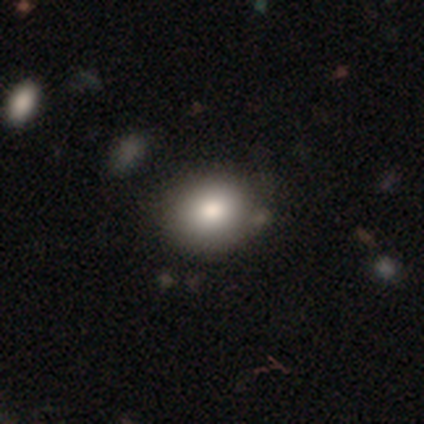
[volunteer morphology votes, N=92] smooth 79%, star or artifact 14%, featured or disk 7%. Down the decision tree: how rounded — round (68%); merging — none (78%).